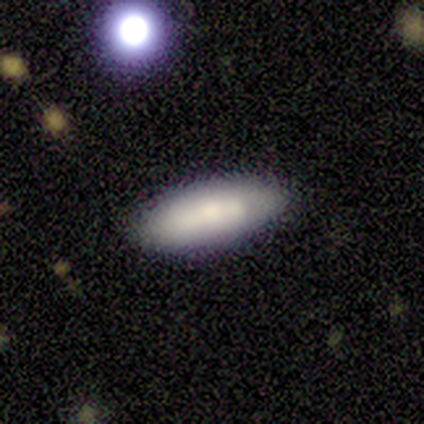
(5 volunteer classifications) This is likely a smooth galaxy (60%). How rounded: clearly in between (100%). Merging: clearly none (80%).